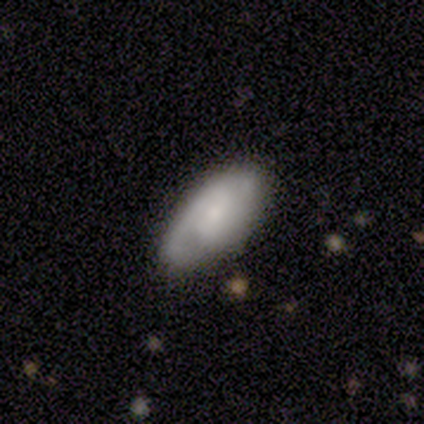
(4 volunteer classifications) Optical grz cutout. It shows a featured or disk galaxy (75%) with no bar (100%), 2 (100%) tight (50%, tied with medium) spiral arms (67%) and a moderate central bulge (33%, tied with small and none). Merging: none (50%, tied with minor disturbance).